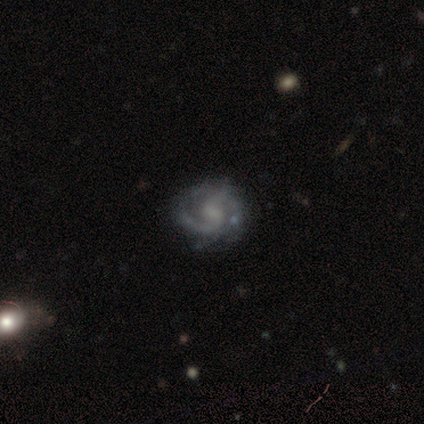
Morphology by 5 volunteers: Smooth or featured: featured or disk — 100%
Edge-on disk: no — 100%
Bar: weak — 60% (no — 40%)
Spiral arms: yes — 80% (no — 20%)
Spiral winding: medium — 50% (tight — 25%)
Spiral arm count: 2 — 75% (3 — 25%)
Bulge size: small — 40% (tied with none — 40%)
Merging: none — 100%